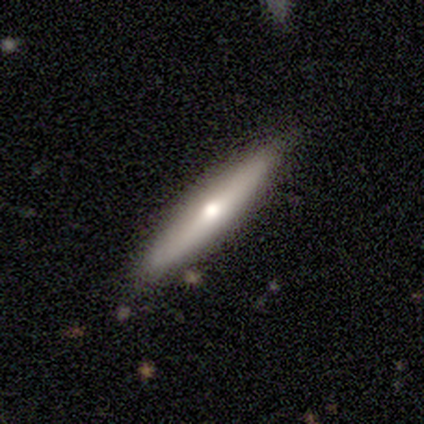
A featured or disk galaxy (60%) viewed edge-on (100%) with a rounded central bulge (67%). Merging: none (100%).